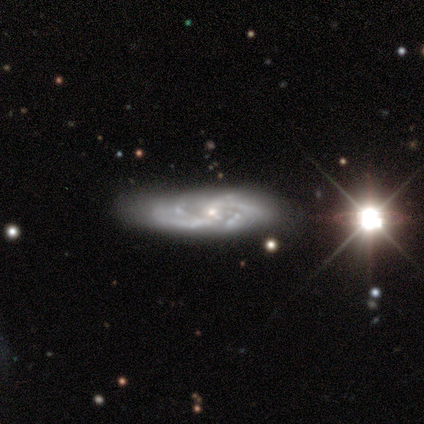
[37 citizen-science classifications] Volunteers were most divided on "spiral winding" (2-way tie): tight: 48%, medium: 48%, loose: 4%. Remaining: spiral arms — yes (100%); edge-on disk — no (89%); smooth or featured — featured or disk (76%); bulge size — small (68%); merging — none (65%); bar — no (56%); spiral arm count — can't tell (28%).